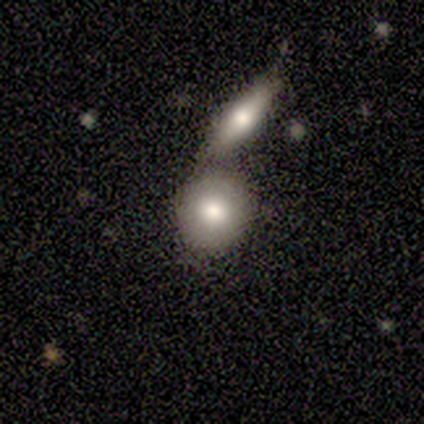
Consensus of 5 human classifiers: Q: Smooth or featured?
A: smooth (80%); runner-up: star or artifact (20%)
Q: How rounded?
A: round (100%)
Q: Merging?
A: none (50%); tied with: merger (50%)